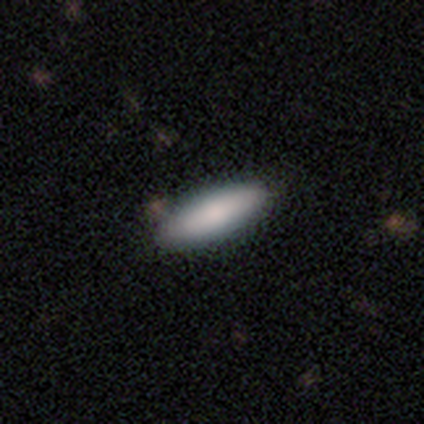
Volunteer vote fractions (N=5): Smooth or featured? smooth (80%)
How rounded? cigar-shaped (75%)
Merging? none (80%)